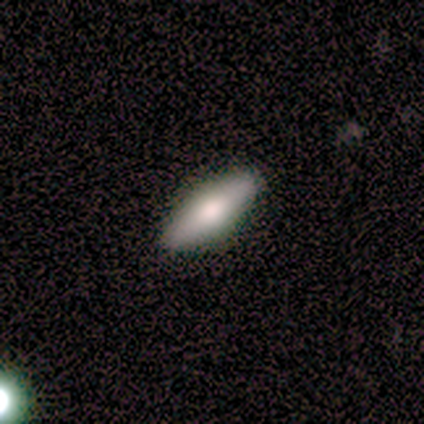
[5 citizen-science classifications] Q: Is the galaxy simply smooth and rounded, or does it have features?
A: smooth — 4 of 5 (80%).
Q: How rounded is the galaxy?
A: in between — 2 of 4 (50%, tied with cigar-shaped).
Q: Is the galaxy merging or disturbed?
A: none — 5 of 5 (100%).